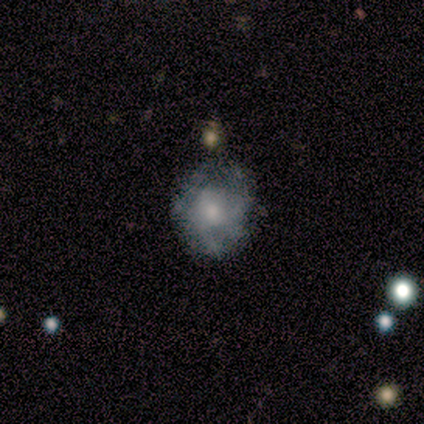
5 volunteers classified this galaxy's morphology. Smooth or featured: featured or disk — 100%
Edge-on disk: no — 100%
Bar: no — 100%
Spiral arms: yes — 80% (no — 20%)
Spiral winding: tight — 50% (medium — 25%)
Spiral arm count: 4 — 50% (2 — 25%)
Bulge size: moderate — 80% (small — 20%)
Merging: none — 60% (minor disturbance — 20%)